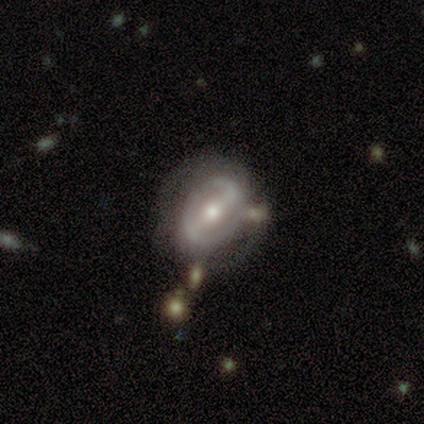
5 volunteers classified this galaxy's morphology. Smooth or featured? featured or disk (80%)
Edge-on disk? no (100%)
Bar? strong (75%)
Spiral arms? yes (50%, tied with no)
Spiral winding? tight (50%, tied with loose)
Spiral arm count? 1 (50%, tied with 2)
Bulge size? moderate (50%, tied with small)
Merging? minor disturbance (60%)